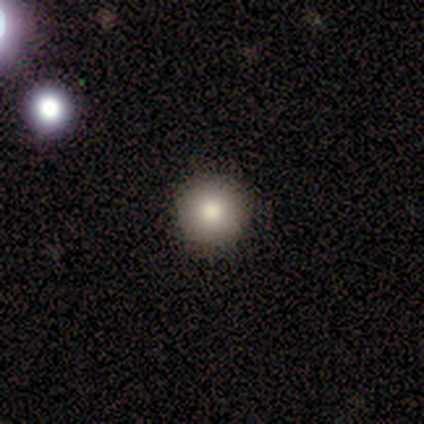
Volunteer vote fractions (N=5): Smooth or featured? 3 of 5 (60%) said smooth. How rounded? 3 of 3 (100%) said round. Merging? 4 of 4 (100%) said none.